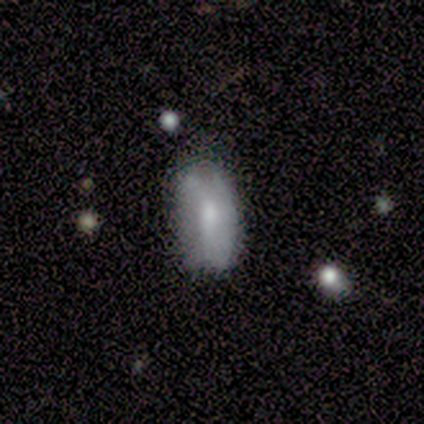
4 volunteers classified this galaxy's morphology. This appears to be a smooth galaxy with no disk features (75%) that is in between round and cigar-shaped (100%). Merging: none (75%).